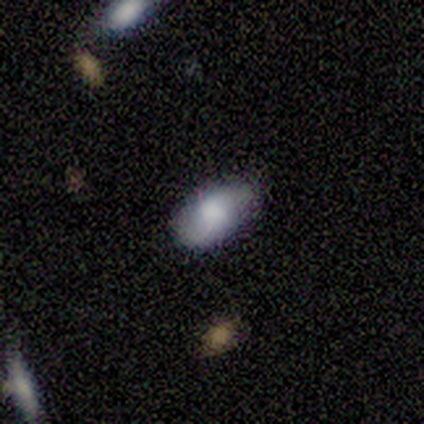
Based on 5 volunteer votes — smooth-or-featured: smooth: 80% | featured or disk: 20% | star or artifact: 0%
  how-rounded: in between: 100% | round: 0% | cigar-shaped: 0%
  merging: minor disturbance: 60% | none: 40% | major disturbance: 0% | merger: 0%